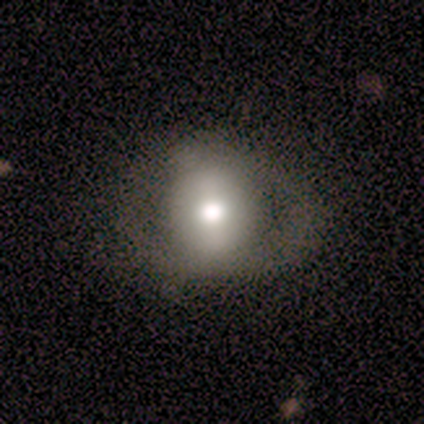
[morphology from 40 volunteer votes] This is possibly a smooth galaxy (57%). How rounded: clearly round (87%). Merging: possibly none (49%).